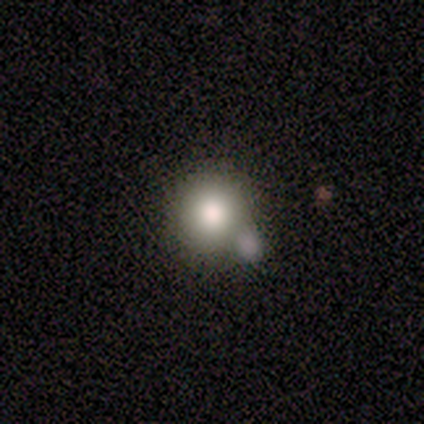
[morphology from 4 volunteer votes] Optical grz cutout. It shows a smooth galaxy with no disk features (75%) that is round (100%). Merging: none (50%).